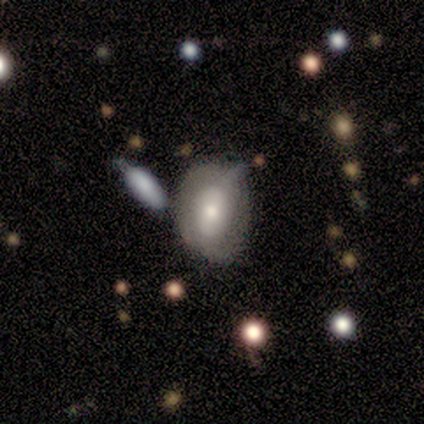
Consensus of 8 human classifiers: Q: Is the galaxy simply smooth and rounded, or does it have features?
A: smooth — 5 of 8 (62%).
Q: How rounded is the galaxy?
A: in between — 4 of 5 (80%).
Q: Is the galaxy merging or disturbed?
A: none — 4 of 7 (57%).